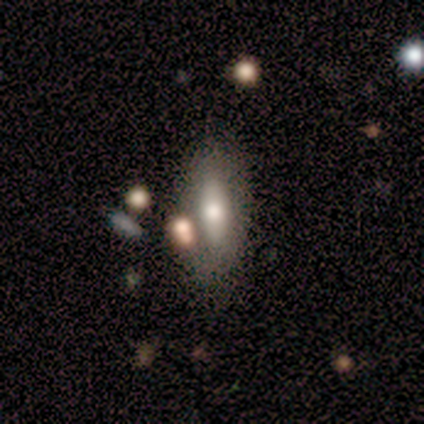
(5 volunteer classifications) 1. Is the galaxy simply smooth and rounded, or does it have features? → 80% smooth, 20% star or artifact, 0% featured or disk.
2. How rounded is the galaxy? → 75% in between, 25% cigar-shaped, 0% round.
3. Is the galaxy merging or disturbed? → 75% none, 25% minor disturbance, 0% major disturbance, 0% merger.